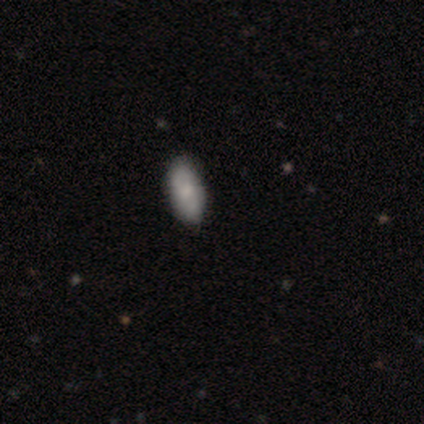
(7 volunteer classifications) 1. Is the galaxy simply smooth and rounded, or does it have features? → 100% smooth, 0% featured or disk, 0% star or artifact.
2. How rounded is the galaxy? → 100% in between, 0% round, 0% cigar-shaped.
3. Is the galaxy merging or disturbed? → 100% none, 0% minor disturbance, 0% major disturbance, 0% merger.